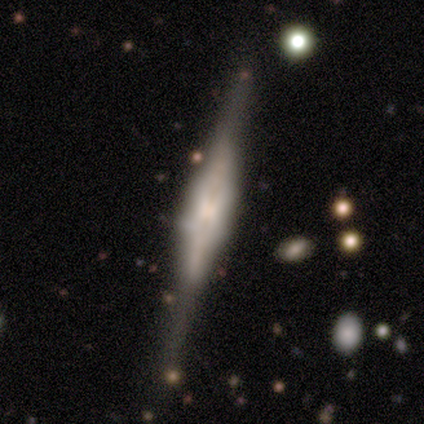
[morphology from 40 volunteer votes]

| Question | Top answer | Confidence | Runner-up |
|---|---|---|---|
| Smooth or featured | featured or disk | 88% | smooth (8%) |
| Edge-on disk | yes | 97% | no (3%) |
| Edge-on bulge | boxy | 71% | rounded (26%) |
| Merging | none | 66% | minor disturbance (24%) |